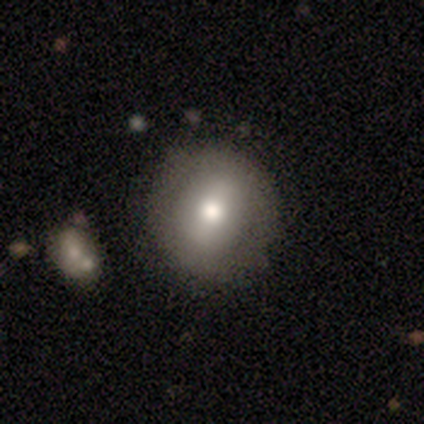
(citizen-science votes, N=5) Q: Smooth or featured?
A: smooth (100%)
Q: How rounded?
A: round (80%); runner-up: in between (20%)
Q: Merging?
A: none (60%); runner-up: minor disturbance (40%)